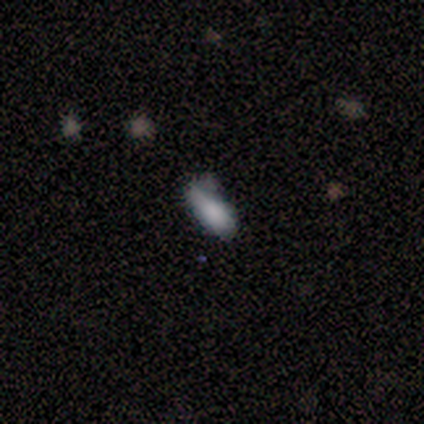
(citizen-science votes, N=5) smooth-or-featured: smooth: 60% | featured or disk: 40% | star or artifact: 0%
  how-rounded: in between: 67% | cigar-shaped: 33% | round: 0%
  merging: none: 40% (tied) | minor disturbance: 40% (tied) | major disturbance: 20% | merger: 0%